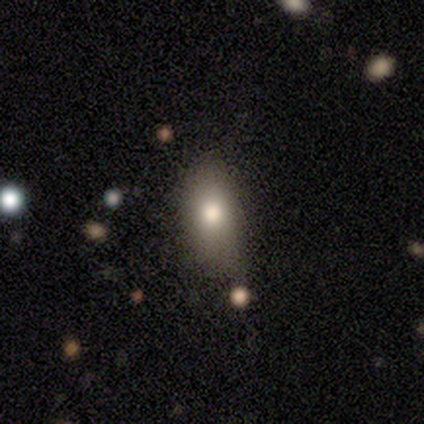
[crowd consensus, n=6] Morphology: type=smooth (100%); roundness=in between (100%); merging=none (50%).